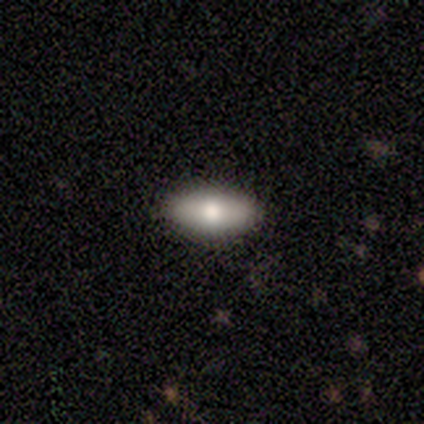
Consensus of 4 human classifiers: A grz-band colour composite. It shows a smooth galaxy with no disk features (100%) that is in between round and cigar-shaped (100%). Merging: none (50%, tied with minor disturbance).